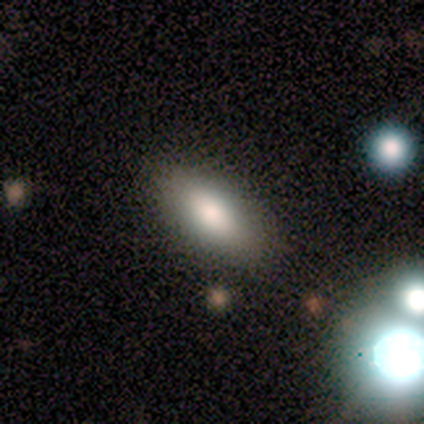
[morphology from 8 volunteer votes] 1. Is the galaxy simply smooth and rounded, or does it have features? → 75% smooth, 12% featured or disk, 12% star or artifact.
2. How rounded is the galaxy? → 83% in between, 17% cigar-shaped, 0% round.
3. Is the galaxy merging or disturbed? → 71% none, 29% minor disturbance, 0% major disturbance, 0% merger.